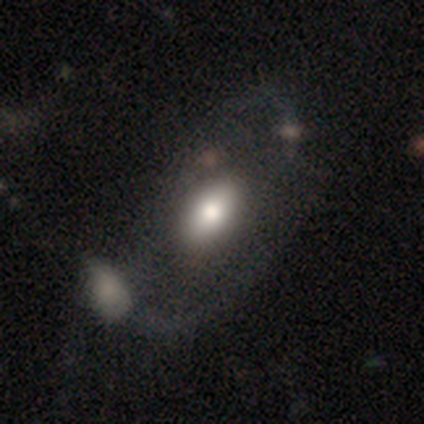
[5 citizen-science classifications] smooth-or-featured: featured or disk: 60% | smooth: 40% | star or artifact: 0%
  disk-edge-on: no: 100% | yes: 0%
    bar: no: 100% | strong: 0% | weak: 0%
    has-spiral-arms: no: 100% | yes: 0%
    bulge-size: large: 67% | moderate: 33% | dominant: 0% | small: 0% | none: 0%
  merging: merger: 60% | minor disturbance: 20% | major disturbance: 20% | none: 0%